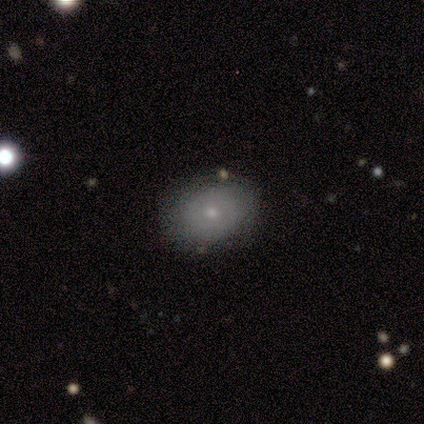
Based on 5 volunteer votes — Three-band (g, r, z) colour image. It shows a smooth galaxy with no disk features (60%) that is in between round and cigar-shaped (67%). Merging: none (80%).